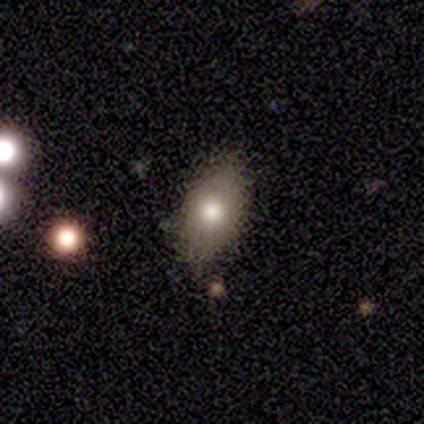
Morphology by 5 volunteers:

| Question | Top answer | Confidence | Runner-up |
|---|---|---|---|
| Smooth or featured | smooth | 40% | tied: featured or disk (40%) |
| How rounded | in between | 100% | — |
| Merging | none | 50% | tied: minor disturbance (50%) |